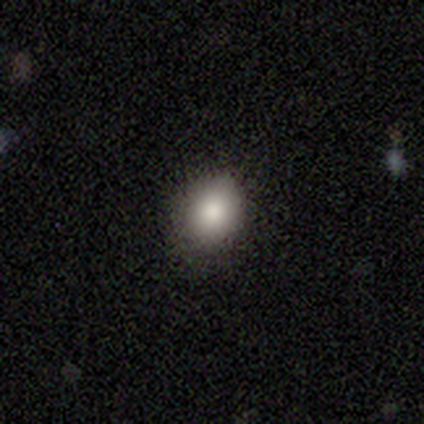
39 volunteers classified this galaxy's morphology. This appears to be a smooth galaxy with no disk features (95%) that is in between round and cigar-shaped (51%). Merging: none (89%).